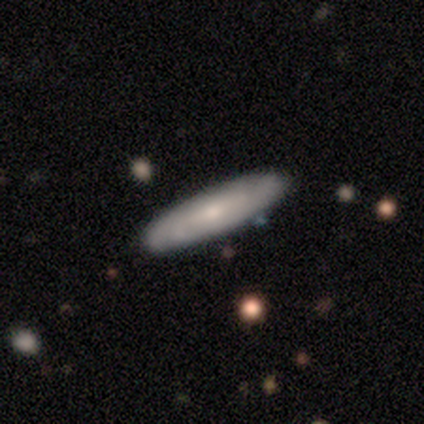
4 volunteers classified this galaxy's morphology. Smooth or featured?
  - smooth: 50% * (tied)
  - featured or disk: 50% * (tied)
  - star or artifact: 0%
How rounded?
  - cigar-shaped: 100% *
  - round: 0%
  - in between: 0%
Merging?
  - none: 100% *
  - minor disturbance: 0%
  - major disturbance: 0%
  - merger: 0%